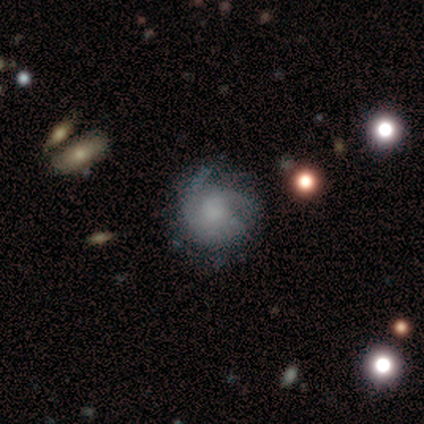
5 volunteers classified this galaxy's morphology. Overall: featured or disk (60%; smooth 40%). Edge-on disk: no (100%). Bar: no (100%). Spiral arms: yes (67%; no 33%). Spiral arm count: more than 4 (50%, tied with can't tell). Spiral winding: tight (100%). Bulge size: none (100%). Merging: minor disturbance (60%; none 40%).